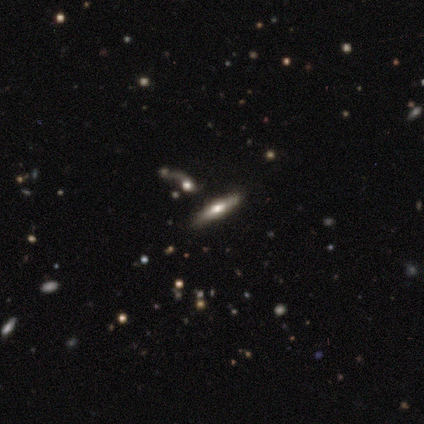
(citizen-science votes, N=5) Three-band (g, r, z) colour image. It shows a featured or disk galaxy (80%) viewed edge-on (75%) with a rounded central bulge (67%). Merging: none (80%).